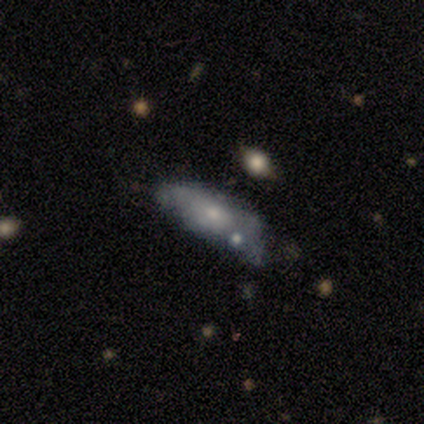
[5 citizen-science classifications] A smooth galaxy with no disk features (80%) that is in between round and cigar-shaped (75%). Merging: minor disturbance (60%).